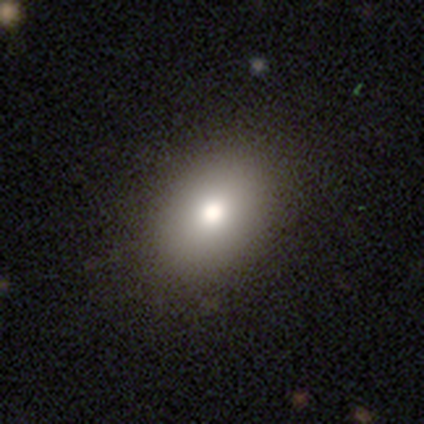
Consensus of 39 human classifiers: A smooth galaxy with no disk features (74%) that is in between round and cigar-shaped (83%). Merging: none (97%).